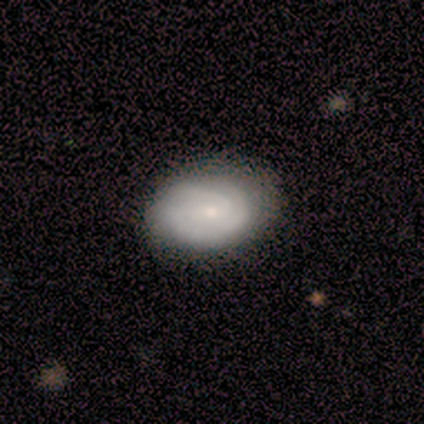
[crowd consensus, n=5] Morphology: type=featured or disk (100%); edge-on=no (100%); bar=no (60%); spiral arms=yes (80%); winding=tight (100%); arm count=can't tell (75%); bulge=small (80%); merging=none (60%).